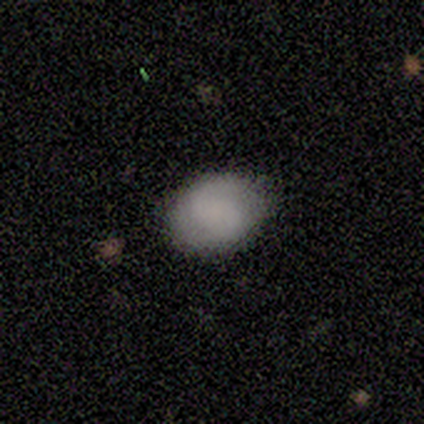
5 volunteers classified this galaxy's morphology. smooth 100%, featured or disk 0%, star or artifact 0%. Down the decision tree: how rounded — in between (80%); merging — none (80%).